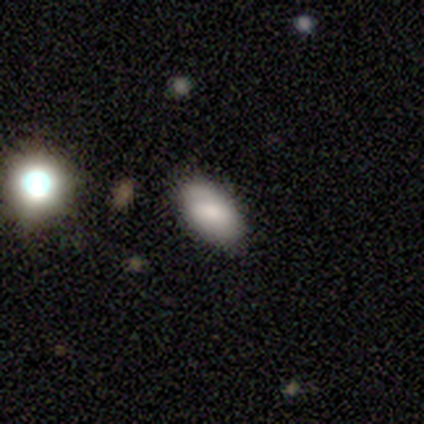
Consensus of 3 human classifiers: smooth_or_featured: smooth (p=1.00)
how_rounded: in between (p=1.00)
merging: none (p=0.67) [alt: major disturbance p=0.33]